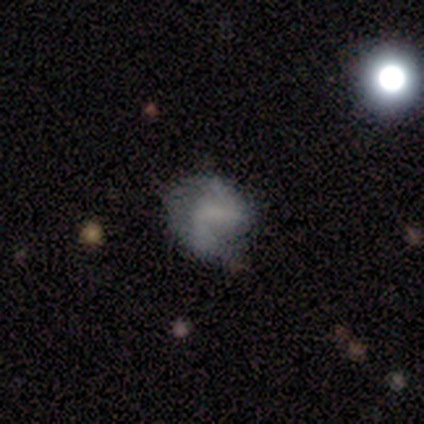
This appears to be a smooth galaxy with no disk features (60%) that is in between round and cigar-shaped (67%). Merging: none (80%).